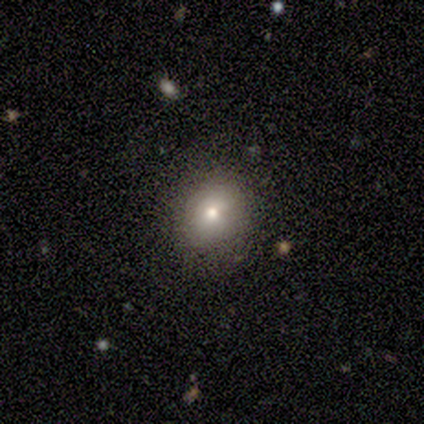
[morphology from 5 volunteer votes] Q: Smooth or featured?
A: smooth (80%); runner-up: star or artifact (20%)
Q: How rounded?
A: round (100%)
Q: Merging?
A: none (75%); runner-up: minor disturbance (25%)